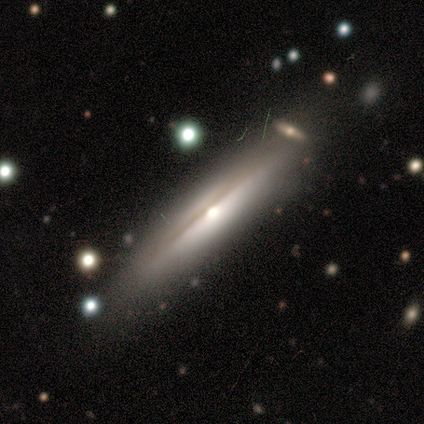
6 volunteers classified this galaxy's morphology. Q: Smooth or featured?
A: featured or disk (67%); runner-up: smooth (17%)
Q: Edge-on disk?
A: yes (75%); runner-up: no (25%)
Q: Edge-on bulge?
A: rounded (67%); runner-up: none (33%)
Q: Merging?
A: none (40%); tied with: merger (40%)